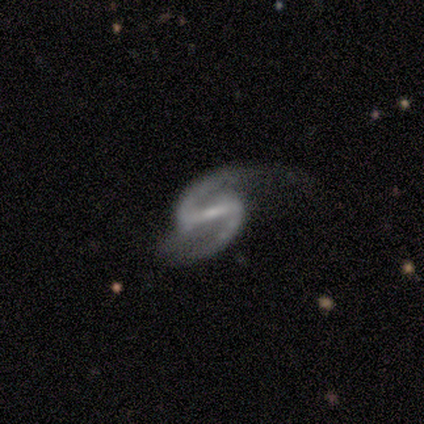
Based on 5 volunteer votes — Smooth or featured? featured or disk (100%)
Edge-on disk? no (100%)
Bar? strong (60%)
Spiral arms? yes (100%)
Spiral winding? medium (40%, tied with loose)
Spiral arm count? 2 (100%)
Bulge size? small (100%)
Merging? none (40%, tied with major disturbance)